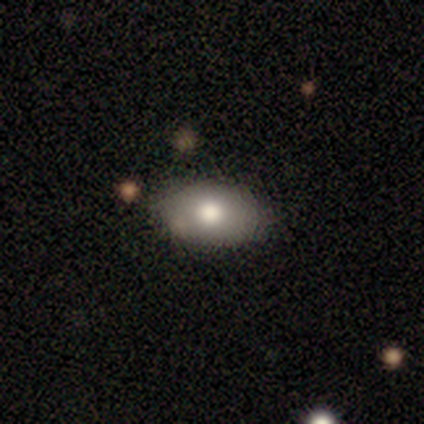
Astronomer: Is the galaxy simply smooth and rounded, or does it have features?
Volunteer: smooth — 67%.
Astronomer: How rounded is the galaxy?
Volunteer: in between — 100%.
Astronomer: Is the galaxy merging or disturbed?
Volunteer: none — 60%.